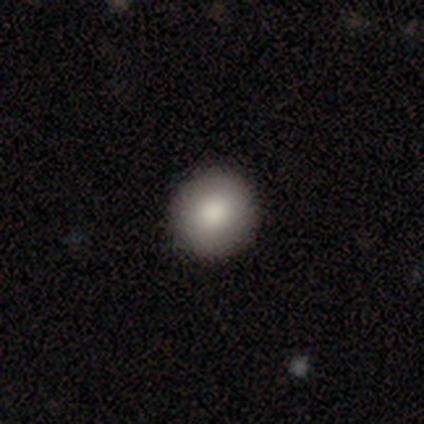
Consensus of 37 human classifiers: This is clearly a smooth galaxy (81%). How rounded: clearly round (93%). Merging: clearly none (97%).